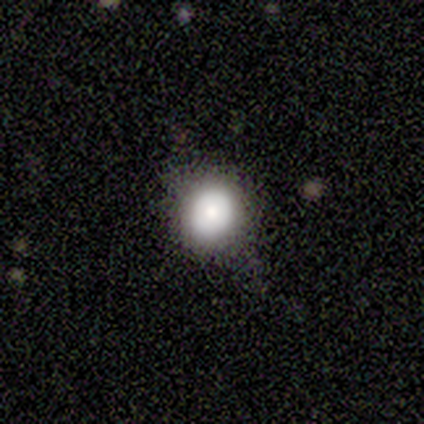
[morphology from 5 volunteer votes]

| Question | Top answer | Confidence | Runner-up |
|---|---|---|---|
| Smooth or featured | smooth | 60% | featured or disk (40%) |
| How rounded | round | 67% | in between (33%) |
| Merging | none | 60% | minor disturbance (40%) |